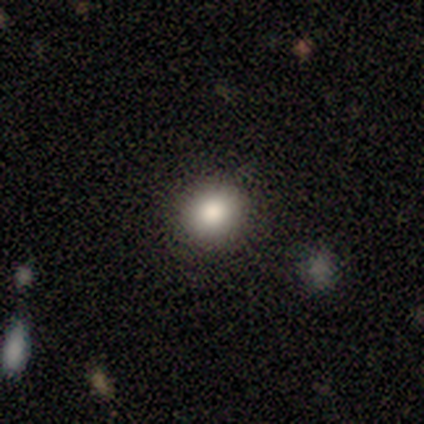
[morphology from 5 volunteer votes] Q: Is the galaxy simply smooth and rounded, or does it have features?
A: smooth — 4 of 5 (80%).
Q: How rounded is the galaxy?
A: round — 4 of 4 (100%).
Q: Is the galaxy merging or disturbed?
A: none — 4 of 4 (100%).